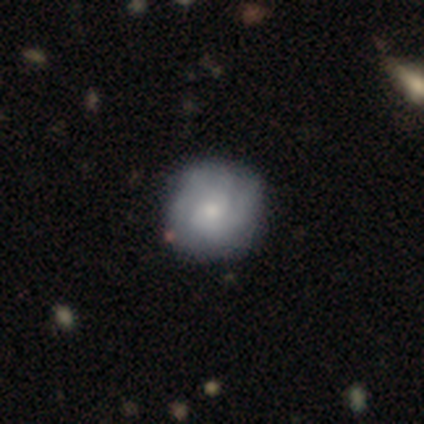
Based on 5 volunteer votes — smooth-or-featured: smooth: 60% | featured or disk: 20% | star or artifact: 20%
  how-rounded: round: 100% | in between: 0% | cigar-shaped: 0%
  merging: none: 100% | minor disturbance: 0% | major disturbance: 0% | merger: 0%